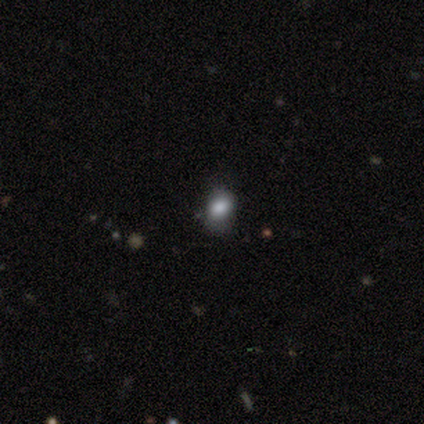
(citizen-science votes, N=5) This appears to be a smooth galaxy with no disk features (60%) that is round (67%). Merging: minor disturbance (67%).